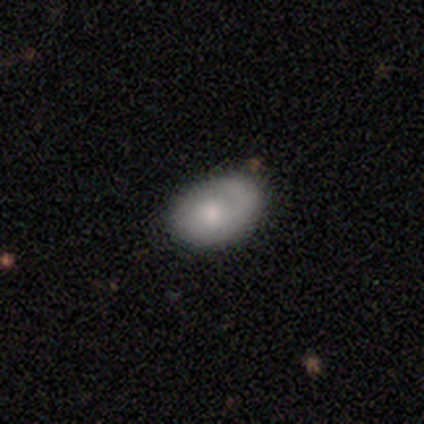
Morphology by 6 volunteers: A smooth galaxy with no disk features (83%) that is in between round and cigar-shaped (100%). Merging: minor disturbance (67%).